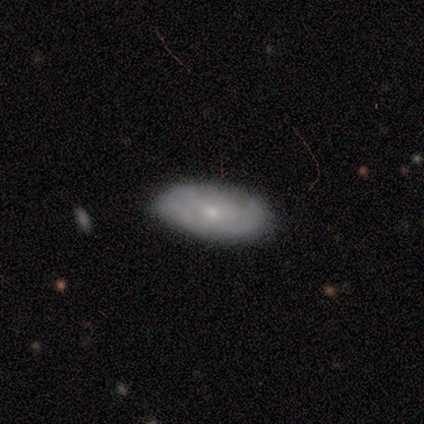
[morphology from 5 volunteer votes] Overall: featured or disk (60%; smooth 40%). Edge-on disk: no (67%; yes 33%). Bar: no (100%). Spiral arms: yes (100%). Spiral arm count: 3 (50%, tied with can't tell). Spiral winding: tight (100%). Bulge size: moderate (50%, tied with small). Merging: none (60%; minor disturbance 40%).